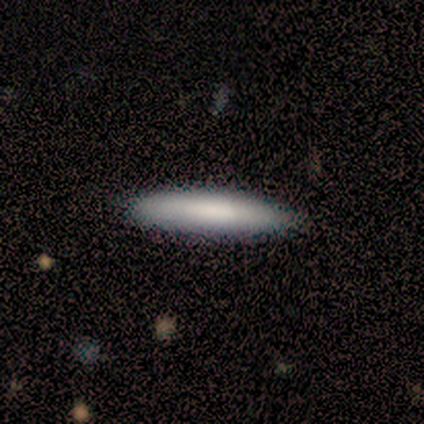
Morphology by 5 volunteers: smooth 100%, featured or disk 0%, star or artifact 0%. Down the decision tree: how rounded — cigar-shaped (100%); merging — none (100%).